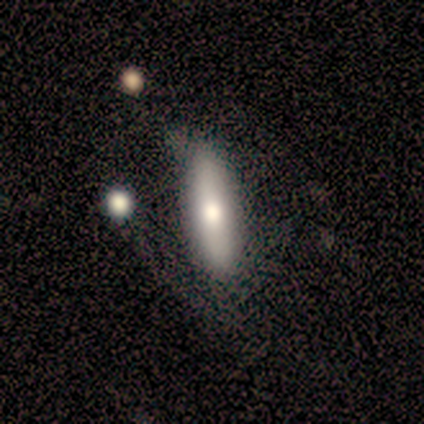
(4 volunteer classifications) Smooth or featured? 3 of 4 (75%) said smooth. How rounded? 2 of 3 (67%) said cigar-shaped. Merging? 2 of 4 (50%) said none.